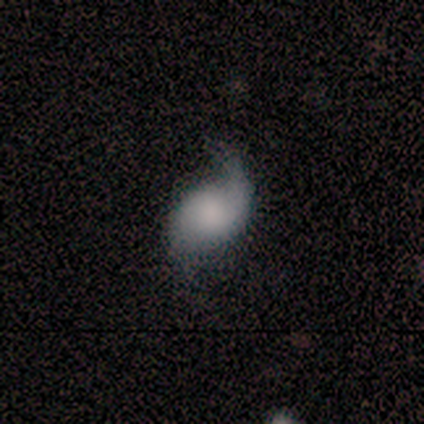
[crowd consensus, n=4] featured or disk 75%, smooth 25%, star or artifact 0%. Down the decision tree: edge-on disk — no (100%); bar — no (100%); spiral arms — yes (100%); spiral arm count — 1 (67%); spiral winding — loose (67%); bulge size — large (67%); merging — none (50%, tied with minor disturbance).